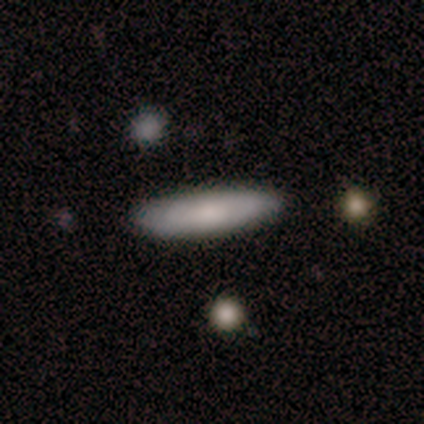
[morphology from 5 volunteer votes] A smooth galaxy with no disk features (60%) that is in between round and cigar-shaped (67%). Merging: none (100%).